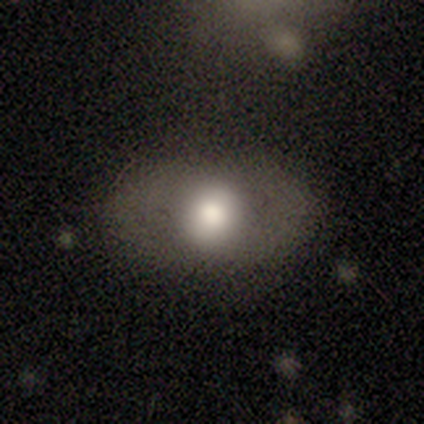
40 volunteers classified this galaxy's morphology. smooth_or_featured: smooth (p=0.72) [alt: featured or disk p=0.23]
how_rounded: in between (p=0.59) [alt: round p=0.41]
merging: none (p=0.79) [alt: minor disturbance p=0.13]